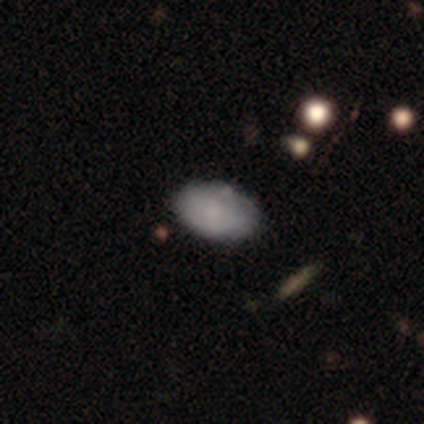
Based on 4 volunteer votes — A smooth galaxy with no disk features (100%) that is in between round and cigar-shaped (100%). Merging: none (100%).